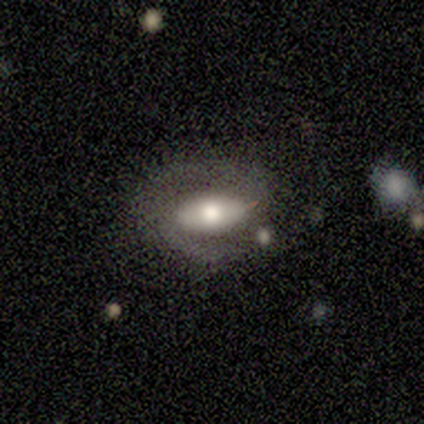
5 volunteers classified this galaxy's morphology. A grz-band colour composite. It shows a featured or disk galaxy (80%) with a strong bar (50%, tied with weak), 2 (100%) medium (50%) spiral arms (100%) and a moderate central bulge (50%). Merging: none (100%).